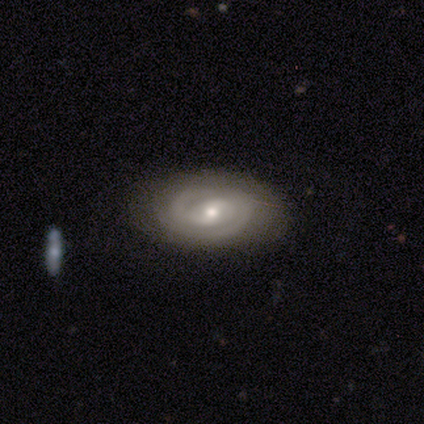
Q: Smooth or featured?
A: featured or disk (82%); runner-up: smooth (15%)
Q: Edge-on disk?
A: no (100%)
Q: Bar?
A: weak (47%); runner-up: no (38%)
Q: Spiral arms?
A: yes (91%); runner-up: no (9%)
Q: Spiral winding?
A: tight (66%); runner-up: medium (24%)
Q: Spiral arm count?
A: 2 (69%); runner-up: can't tell (17%)
Q: Bulge size?
A: moderate (53%); runner-up: small (38%)
Q: Merging?
A: none (89%); runner-up: minor disturbance (11%)